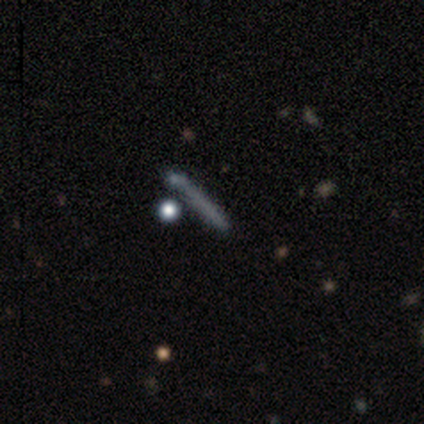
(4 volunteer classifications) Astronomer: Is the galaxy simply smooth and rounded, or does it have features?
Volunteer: smooth — 50%.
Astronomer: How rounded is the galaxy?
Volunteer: cigar-shaped — 100%.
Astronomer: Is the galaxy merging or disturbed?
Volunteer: none — 100%.